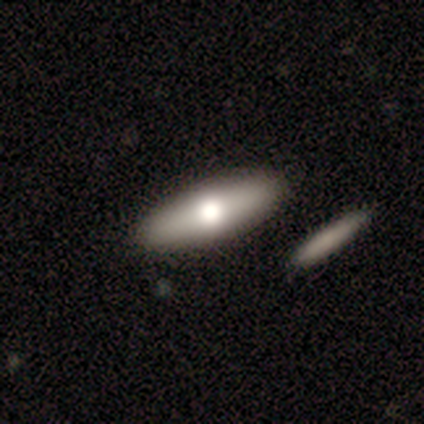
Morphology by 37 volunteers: This appears to be a smooth galaxy with no disk features (68%) that is in between round and cigar-shaped (64%). Merging: none (62%).